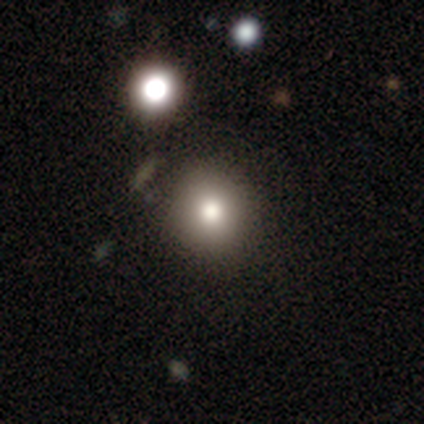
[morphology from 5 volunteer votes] Smooth or featured: smooth — 100%
How rounded: round — 60% (in between — 40%)
Merging: none — 100%